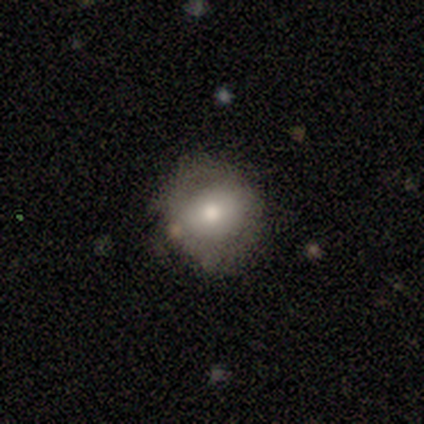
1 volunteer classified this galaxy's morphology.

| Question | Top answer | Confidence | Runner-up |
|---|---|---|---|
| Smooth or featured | featured or disk | 100% | — |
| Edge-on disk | no | 100% | — |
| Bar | no | 100% | — |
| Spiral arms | no | 100% | — |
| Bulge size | moderate | 100% | — |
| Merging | none | 100% | — |